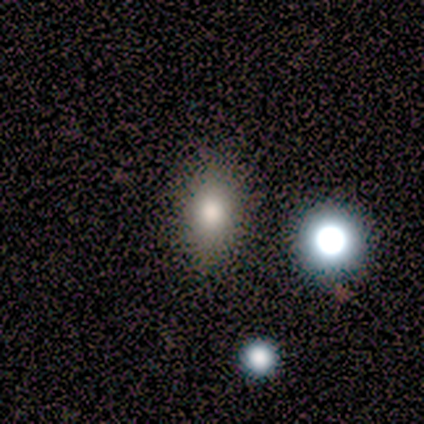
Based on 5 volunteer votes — Smooth or featured? smooth (60%)
How rounded? in between (100%)
Merging? none (100%)